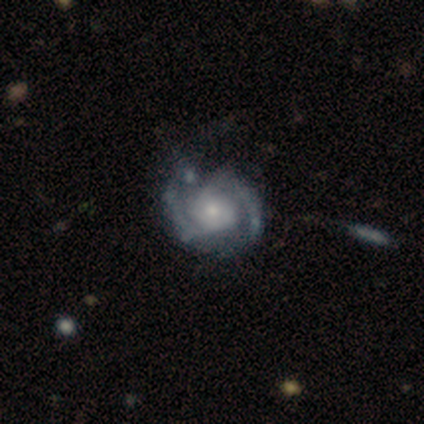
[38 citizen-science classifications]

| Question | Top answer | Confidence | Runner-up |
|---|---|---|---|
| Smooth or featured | featured or disk | 95% | smooth (3%) |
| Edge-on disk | no | 97% | yes (3%) |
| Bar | no | 66% | weak (23%) |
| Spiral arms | yes | 91% | no (9%) |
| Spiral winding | tight | 56% | medium (41%) |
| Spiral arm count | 2 | 94% | 3 (3%) |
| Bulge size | small | 57% | moderate (31%) |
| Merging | none | 51% | minor disturbance (30%) |